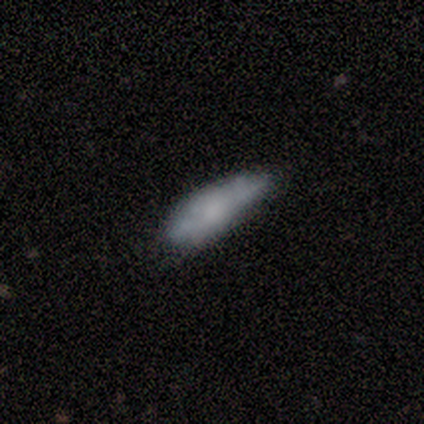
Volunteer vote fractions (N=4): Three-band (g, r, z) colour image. It shows a smooth galaxy with no disk features (50%) that is cigar-shaped (100%). Merging: none (67%).